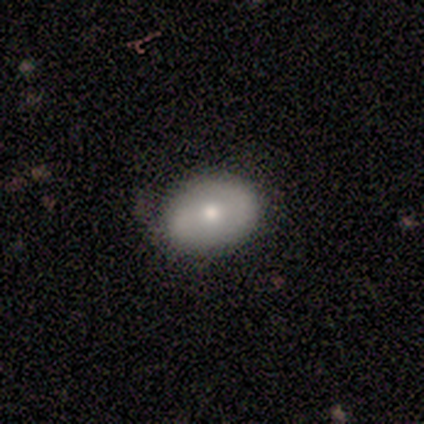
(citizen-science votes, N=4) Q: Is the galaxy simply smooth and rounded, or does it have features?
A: smooth — 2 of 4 (50%, tied with featured or disk).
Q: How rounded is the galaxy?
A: in between — 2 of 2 (100%).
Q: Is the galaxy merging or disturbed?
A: none — 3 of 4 (75%).